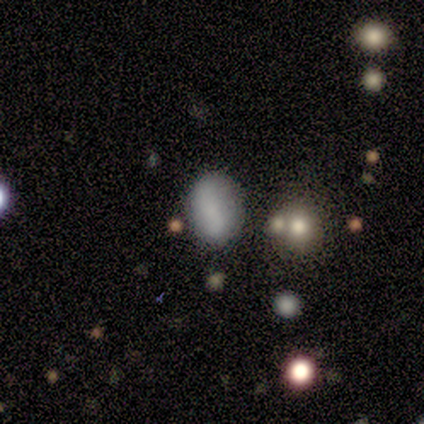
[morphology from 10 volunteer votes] Smooth or featured? 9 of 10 (90%) said smooth. How rounded? 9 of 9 (100%) said in between. Merging? 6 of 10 (60%) said none.